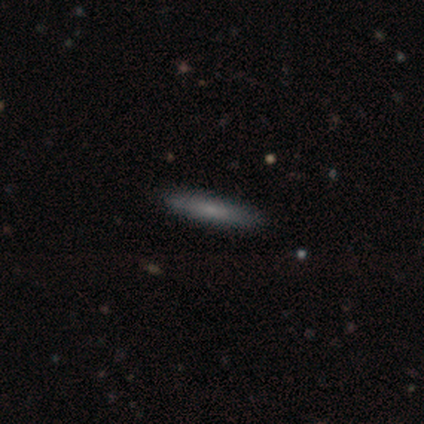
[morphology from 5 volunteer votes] Smooth or featured: smooth — 80% (featured or disk — 20%)
How rounded: cigar-shaped — 100%
Merging: none — 80% (major disturbance — 20%)